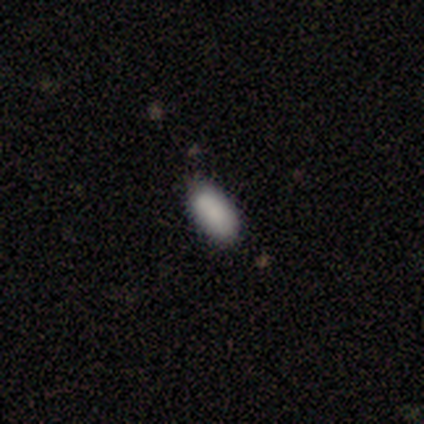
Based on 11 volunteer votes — smooth-or-featured: smooth: 100% | featured or disk: 0% | star or artifact: 0%
  how-rounded: in between: 82% | cigar-shaped: 18% | round: 0%
  merging: none: 82% | minor disturbance: 9% | major disturbance: 9% | merger: 0%